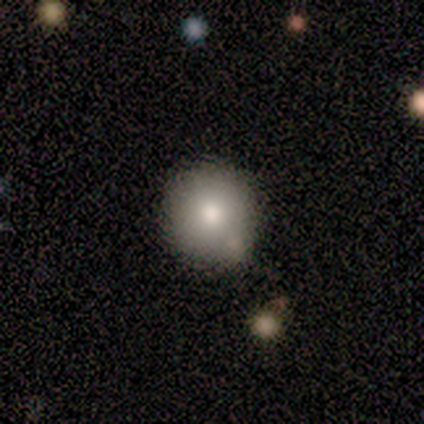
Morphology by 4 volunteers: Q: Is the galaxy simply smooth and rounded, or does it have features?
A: smooth — 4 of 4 (100%).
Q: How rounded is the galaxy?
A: round — 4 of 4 (100%).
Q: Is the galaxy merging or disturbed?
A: minor disturbance — 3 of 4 (75%).